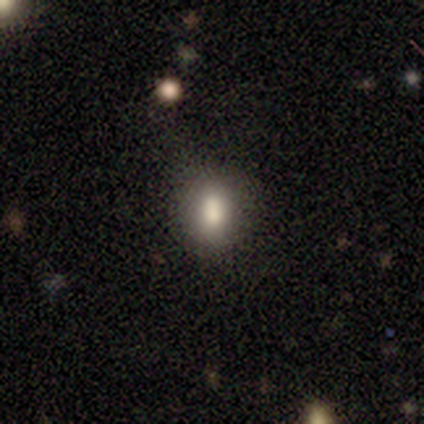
Smooth or featured: smooth — 60% (featured or disk — 20%)
How rounded: in between — 67% (cigar-shaped — 33%)
Merging: none — 75% (merger — 25%)